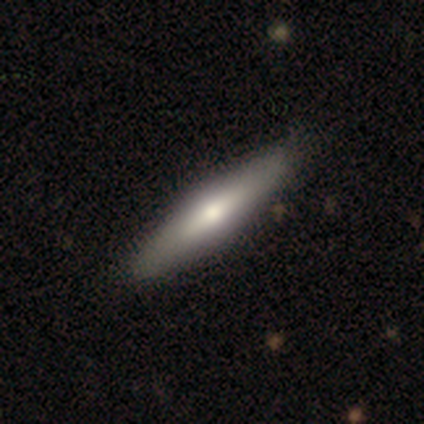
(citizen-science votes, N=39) smooth_or_featured: smooth (p=0.56) [alt: featured or disk p=0.41]
how_rounded: cigar-shaped (p=0.86) [alt: in between p=0.14]
merging: none (p=0.79)